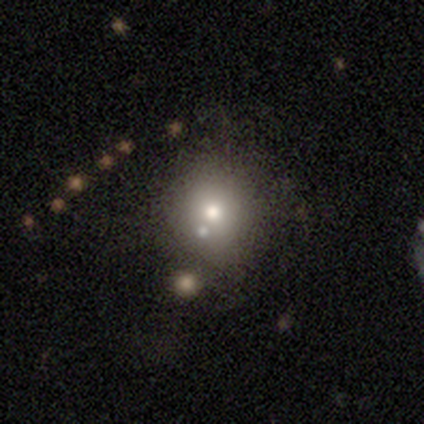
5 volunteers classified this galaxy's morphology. A smooth galaxy with no disk features (60%) that is round (67%).

Vote fractions:
- Smooth or featured? smooth: 60% / featured or disk: 40% / star or artifact: 0%
- How rounded? round: 67% / cigar-shaped: 33% / in between: 0%
- Merging? none: 60% / major disturbance: 20% / merger: 20% / minor disturbance: 0%